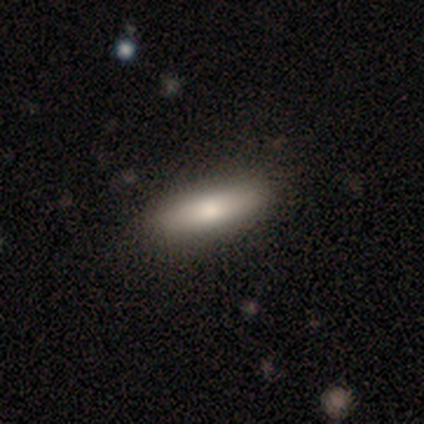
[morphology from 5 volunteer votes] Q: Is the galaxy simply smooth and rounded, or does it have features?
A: smooth — 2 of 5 (40%, tied with featured or disk).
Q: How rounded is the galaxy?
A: cigar-shaped — 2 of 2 (100%).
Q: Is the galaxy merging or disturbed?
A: minor disturbance — 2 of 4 (50%).